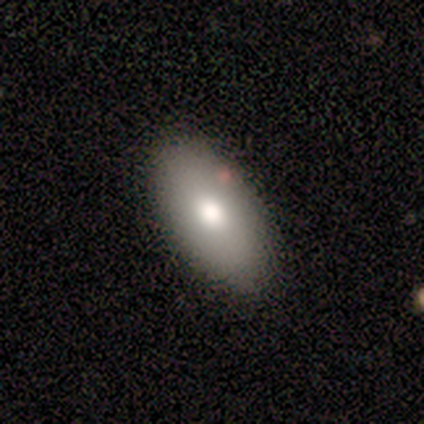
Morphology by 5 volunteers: smooth 80%, featured or disk 20%, star or artifact 0%. Down the decision tree: how rounded — in between (100%); merging — none (100%).